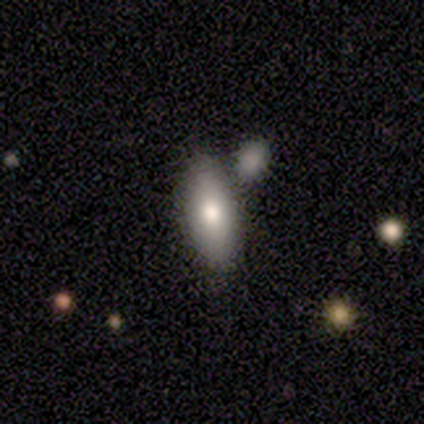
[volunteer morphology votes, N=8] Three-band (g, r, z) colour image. It shows a smooth galaxy with no disk features (62%) that is in between round and cigar-shaped (80%). Merging: none (75%).